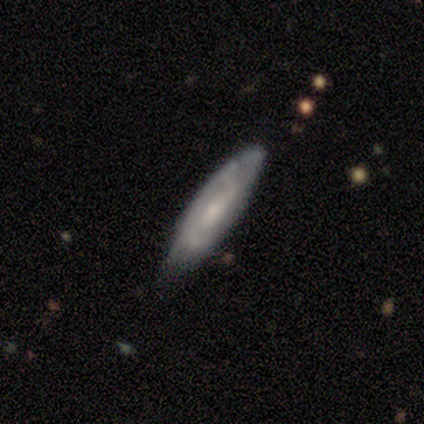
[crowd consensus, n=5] Smooth or featured?
  - featured or disk: 80% *
  - smooth: 20%
  - star or artifact: 0%
Edge-on disk?
  - no: 100% *
  - yes: 0%
Bar?
  - no: 75% *
  - weak: 25%
  - strong: 0%
Spiral arms?
  - yes: 100% *
  - no: 0%
Spiral winding?
  - medium: 50% *
  - tight: 25%
  - loose: 25%
Spiral arm count?
  - can't tell: 75% *
  - 2: 25%
  - 1: 0%
  - 3: 0%
  - 4: 0%
  - more than 4: 0%
Bulge size?
  - small: 100% *
  - dominant: 0%
  - large: 0%
  - moderate: 0%
  - none: 0%
Merging?
  - none: 80% *
  - minor disturbance: 20%
  - major disturbance: 0%
  - merger: 0%